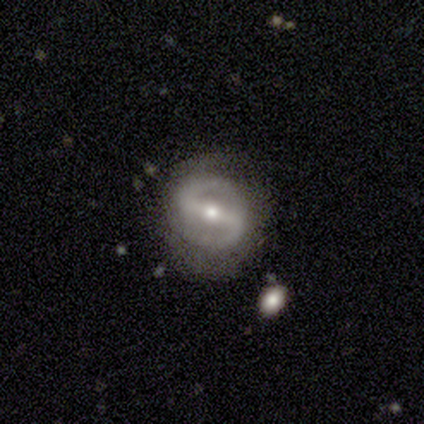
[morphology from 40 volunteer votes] Q: Smooth or featured?
A: featured or disk (90%); runner-up: smooth (8%)
Q: Edge-on disk?
A: no (97%); runner-up: yes (3%)
Q: Bar?
A: strong (77%); runner-up: weak (20%)
Q: Spiral arms?
A: yes (86%); runner-up: no (14%)
Q: Spiral winding?
A: medium (57%); runner-up: tight (30%)
Q: Spiral arm count?
A: 2 (90%); runner-up: 1 (3%)
Q: Bulge size?
A: moderate (51%); runner-up: small (37%)
Q: Merging?
A: none (67%); runner-up: minor disturbance (28%)